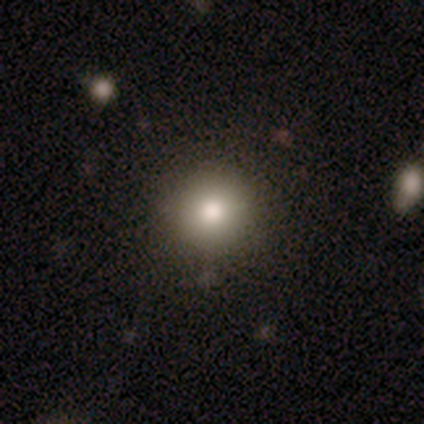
Volunteers were most divided on "smooth or featured": smooth: 60%, star or artifact: 40%, featured or disk: 0%. More confident: how rounded — round (100%); merging — none (100%).